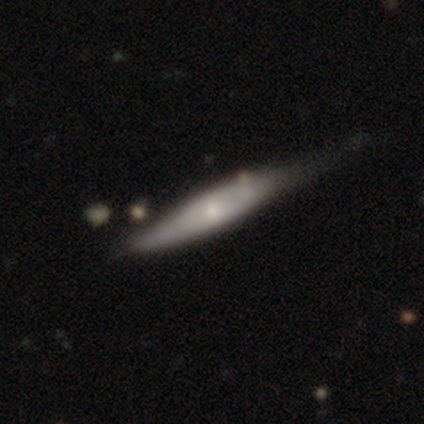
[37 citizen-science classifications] Overall: featured or disk (51%; smooth 46%). Edge-on disk: yes (74%). Edge-on bulge: rounded (43%; none 36%). Merging: none (39%; minor disturbance 33%).